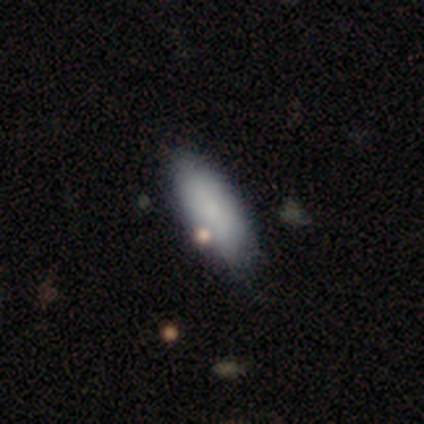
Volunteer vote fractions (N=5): smooth_or_featured: smooth (p=0.80) [alt: star or artifact p=0.20]
how_rounded: in between (p=1.00)
merging: none (p=1.00)